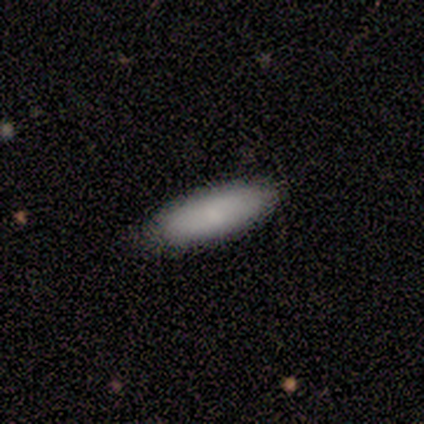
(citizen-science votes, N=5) This appears to be a smooth galaxy with no disk features (60%) that is cigar-shaped (100%). Merging: none (80%).